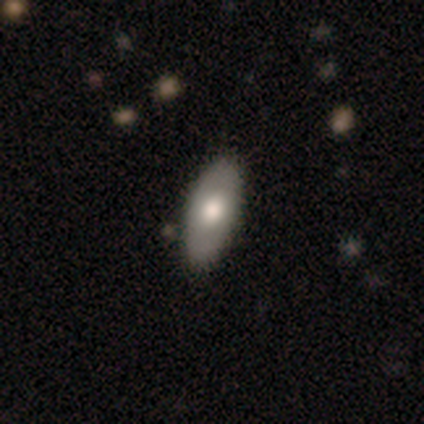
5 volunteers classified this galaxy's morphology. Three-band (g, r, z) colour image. It shows a smooth galaxy with no disk features (80%) that is in between round and cigar-shaped (100%). Merging: none (100%).